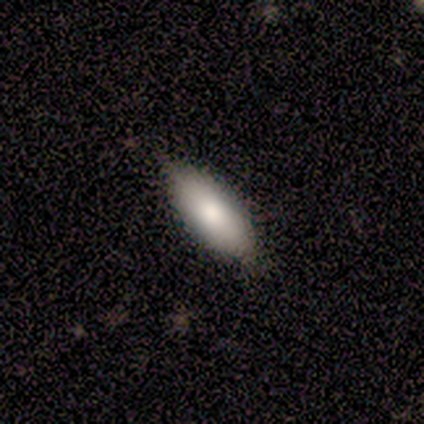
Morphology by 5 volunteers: smooth 80%, featured or disk 20%, star or artifact 0%. Down the decision tree: how rounded — in between (50%, tied with cigar-shaped); merging — none (80%).